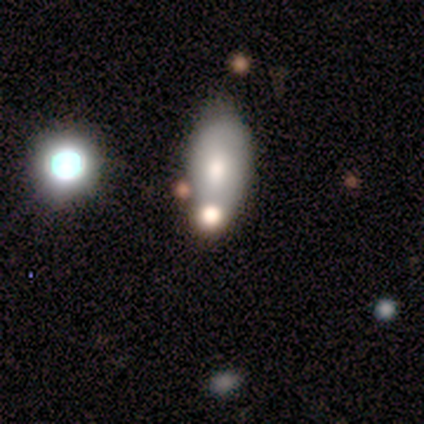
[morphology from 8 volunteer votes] smooth 50% (tied), featured or disk 50% (tied), star or artifact 0%. Down the decision tree: how rounded — in between (100%); merging — none (62%).